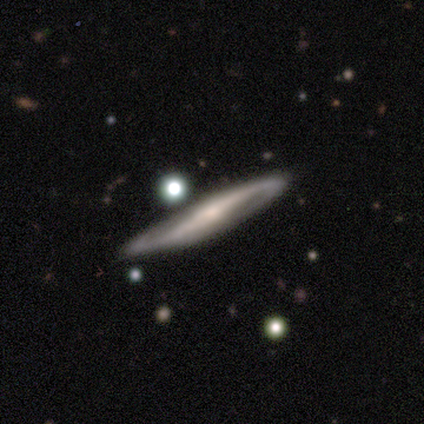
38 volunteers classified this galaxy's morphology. This is clearly a featured or disk galaxy (84%). It is likely viewed edge-on (62%). Edge-on bulge: likely rounded (70%). Merging: likely none (75%).